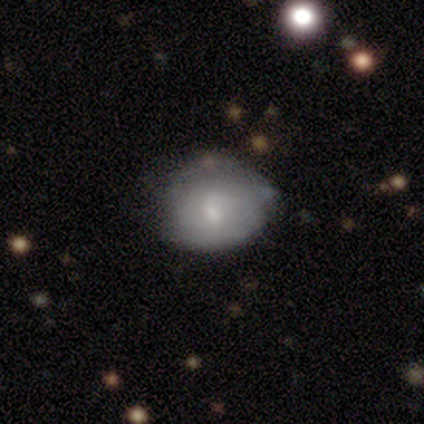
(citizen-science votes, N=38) This is possibly a smooth galaxy (55%). How rounded: likely round (62%). Merging: possibly none (50%).